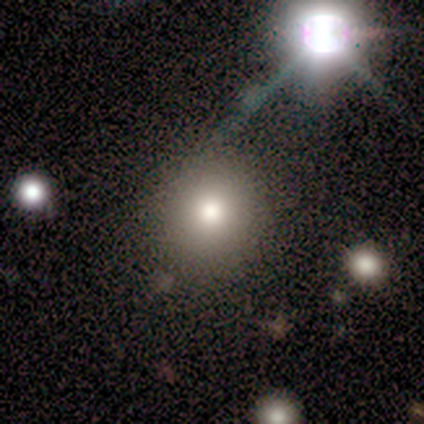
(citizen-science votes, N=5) This appears to be a star or artifact, not a galaxy (60%).